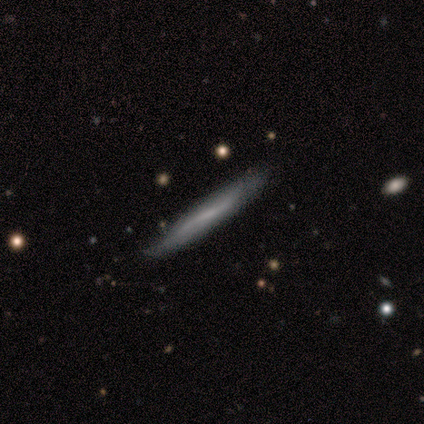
Q: Smooth or featured?
A: featured or disk (80%); runner-up: smooth (20%)
Q: Edge-on disk?
A: yes (75%); runner-up: no (25%)
Q: Edge-on bulge?
A: boxy (33%); tied with: none (33%); rounded (33%)
Q: Merging?
A: none (40%); tied with: minor disturbance (40%)